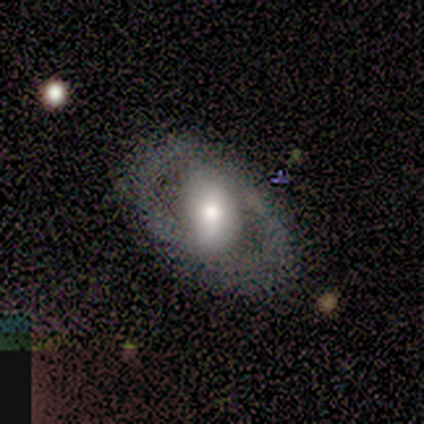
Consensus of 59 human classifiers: A featured or disk galaxy (73%) with a strong bar (35%, tied with no), 2 (64%) tight (50%) spiral arms (51%) and a moderate central bulge (56%). Merging: none (73%).